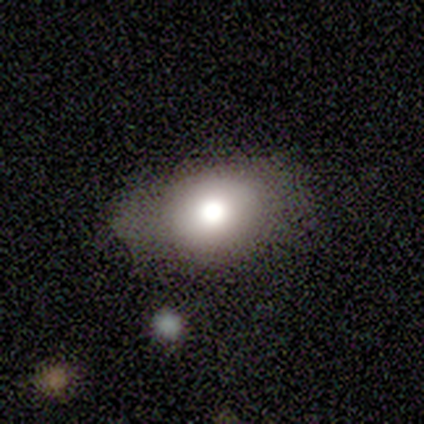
Volunteers were most divided on "smooth or featured": smooth: 60%, featured or disk: 40%, star or artifact: 0%. More confident: merging — none (80%); how rounded — in between (67%).